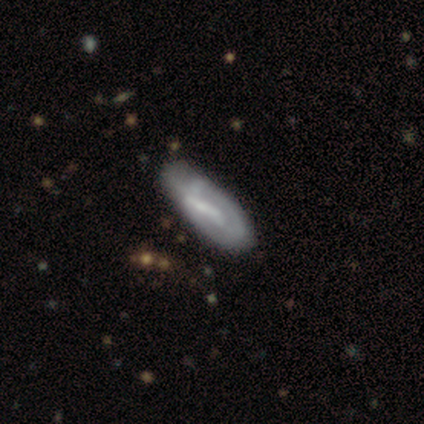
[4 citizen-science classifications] A featured or disk galaxy (100%) with no bar (67%), 1 (33%, tied with 2 and can't tell) tight (67%) spiral arms (100%) and a small central bulge (67%).

Vote fractions:
- Smooth or featured? featured or disk: 100% / smooth: 0% / star or artifact: 0%
- Edge-on disk? no: 75% / yes: 25%
- Bar? no: 67% / strong: 33% / weak: 0%
- Spiral arms? yes: 100% / no: 0%
- Spiral winding? tight: 67% / loose: 33% / medium: 0%
- Spiral arm count? 1: 33% (tied) / 2: 33% (tied) / can't tell: 33% (tied) / 3: 0% / 4: 0% / more than 4: 0%
- Bulge size? small: 67% / none: 33% / dominant: 0% / large: 0% / moderate: 0%
- Merging? none: 25% (tied) / minor disturbance: 25% (tied) / major disturbance: 25% (tied) / merger: 25% (tied)